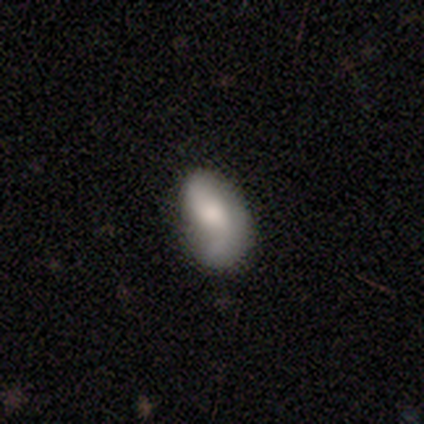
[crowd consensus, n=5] This appears to be a smooth galaxy with no disk features (60%) that is in between round and cigar-shaped (100%). Merging: minor disturbance (40%, tied with major disturbance).